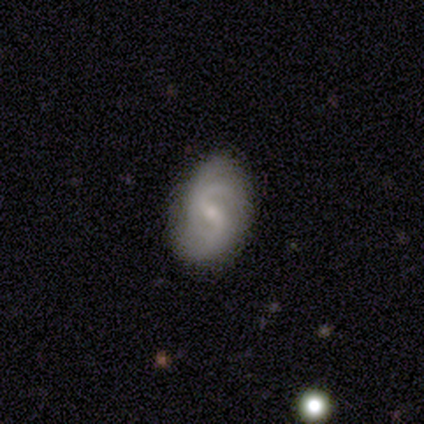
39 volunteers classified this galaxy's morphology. type=featured or disk (85%); edge-on=no (100%); bar=weak (64%); spiral arms=yes (100%); winding=medium (70%); arm count=2 (67%); bulge=small (73%); merging=none (74%).